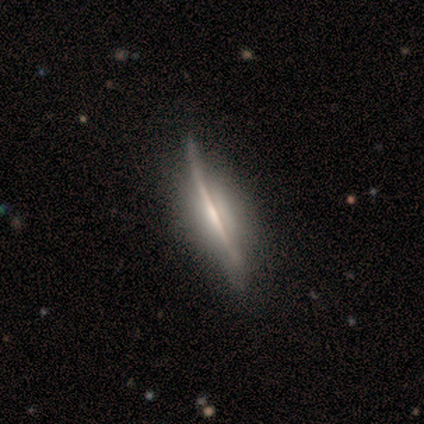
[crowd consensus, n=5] Volunteers were most divided on "merging": minor disturbance: 60%, none: 40%, major disturbance: 0%, merger: 0%. More confident: edge-on disk — yes (100%); edge-on bulge — none (100%); smooth or featured — featured or disk (80%).